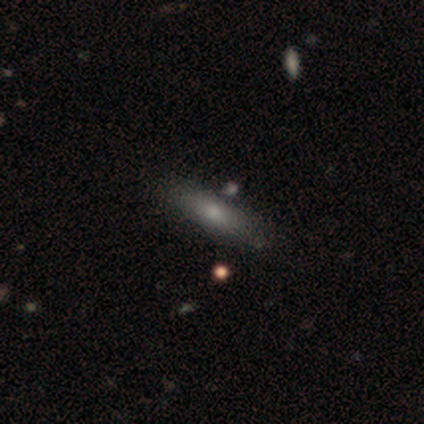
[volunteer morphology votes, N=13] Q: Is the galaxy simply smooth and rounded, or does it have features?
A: smooth — 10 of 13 (77%).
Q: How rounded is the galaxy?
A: cigar-shaped — 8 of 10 (80%).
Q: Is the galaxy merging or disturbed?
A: none — 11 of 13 (85%).